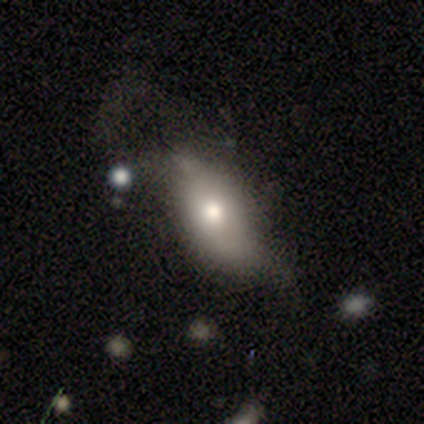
smooth-or-featured: smooth: 83% | featured or disk: 17% | star or artifact: 0%
  how-rounded: in between: 100% | round: 0% | cigar-shaped: 0%
  merging: minor disturbance: 50% | major disturbance: 33% | none: 17% | merger: 0%